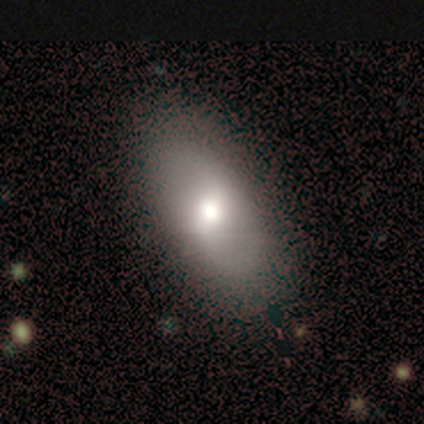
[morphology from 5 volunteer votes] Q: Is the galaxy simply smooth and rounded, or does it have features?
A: smooth — 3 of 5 (60%).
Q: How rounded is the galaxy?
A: in between — 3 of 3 (100%).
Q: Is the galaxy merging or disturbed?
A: none — 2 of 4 (50%).